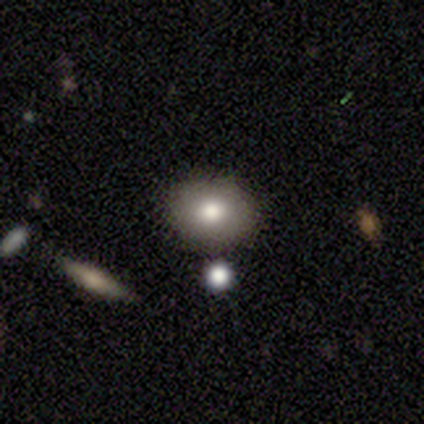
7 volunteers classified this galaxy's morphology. smooth-or-featured: smooth: 86% | featured or disk: 14% | star or artifact: 0%
  how-rounded: round: 83% | in between: 17% | cigar-shaped: 0%
  merging: none: 100% | minor disturbance: 0% | major disturbance: 0% | merger: 0%